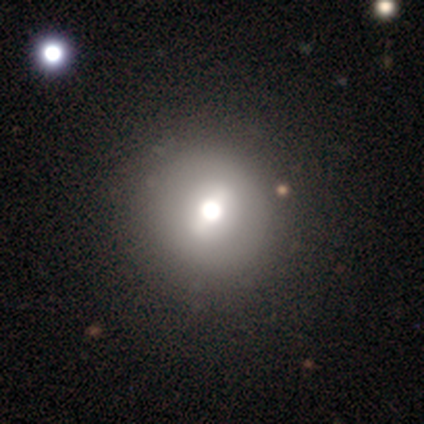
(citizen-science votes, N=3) Morphology: type=smooth (67%); roundness=round (100%); merging=none (100%).